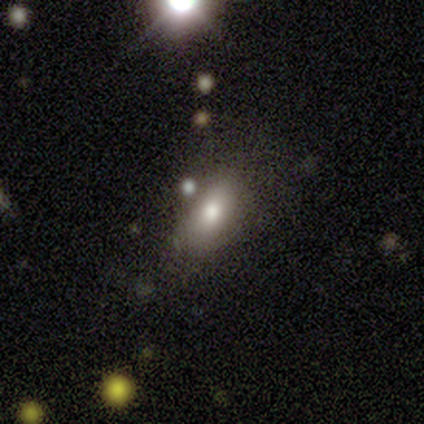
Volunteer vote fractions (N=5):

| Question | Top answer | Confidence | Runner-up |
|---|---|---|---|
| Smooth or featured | smooth | 80% | featured or disk (20%) |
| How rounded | in between | 75% | round (25%) |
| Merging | none | 60% | minor disturbance (20%) |